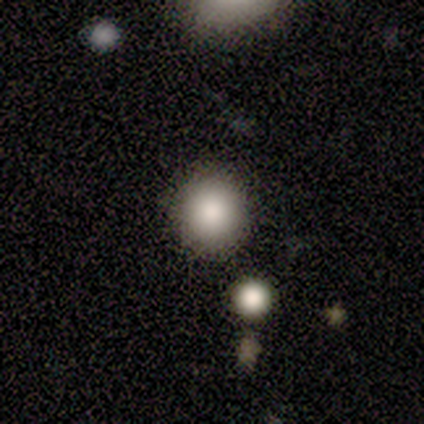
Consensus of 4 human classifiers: Smooth or featured?
  - smooth: 100% *
  - featured or disk: 0%
  - star or artifact: 0%
How rounded?
  - round: 100% *
  - in between: 0%
  - cigar-shaped: 0%
Merging?
  - none: 75% *
  - major disturbance: 25%
  - minor disturbance: 0%
  - merger: 0%